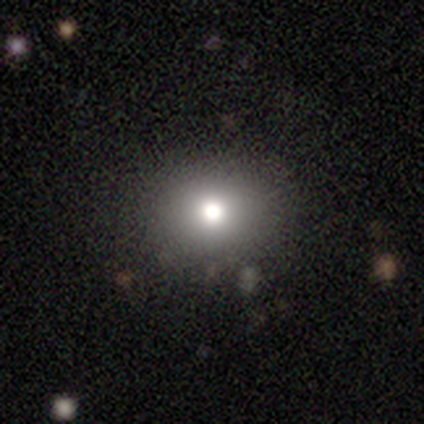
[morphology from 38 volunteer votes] A smooth galaxy with no disk features (74%) that is round (82%).

Vote fractions:
- Smooth or featured? smooth: 74% / star or artifact: 21% / featured or disk: 5%
- How rounded? round: 82% / in between: 18% / cigar-shaped: 0%
- Merging? none: 97% / merger: 3% / minor disturbance: 0% / major disturbance: 0%